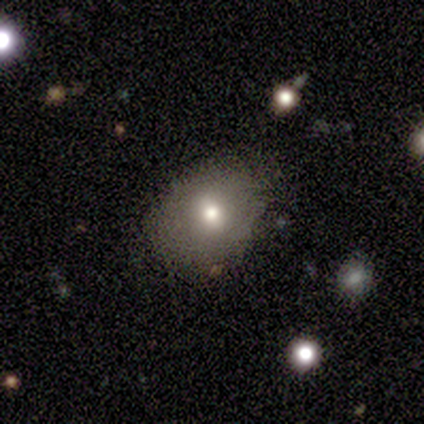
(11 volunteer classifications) Morphology: type=smooth (45%); roundness=round (60%); merging=none (78%).